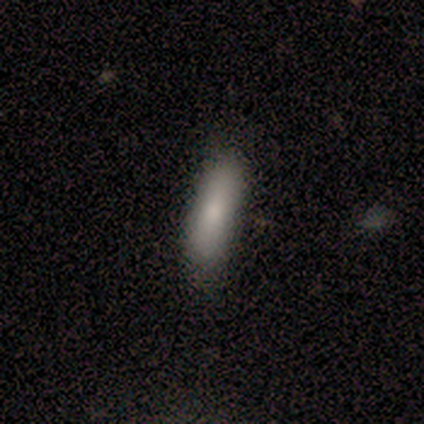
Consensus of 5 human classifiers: This is clearly a smooth galaxy (100%). How rounded: likely cigar-shaped (60%). Merging: likely none (60%).